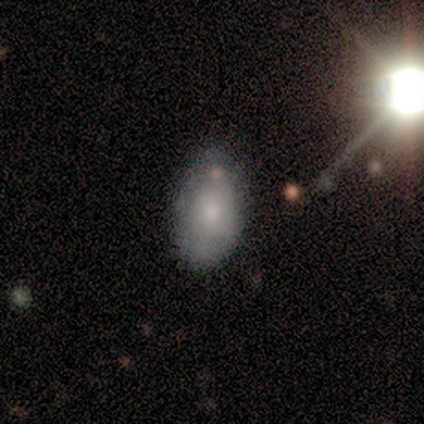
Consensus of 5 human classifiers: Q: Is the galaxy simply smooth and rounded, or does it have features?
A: smooth — 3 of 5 (60%).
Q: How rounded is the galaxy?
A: in between — 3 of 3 (100%).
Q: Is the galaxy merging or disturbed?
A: none — 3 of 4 (75%).